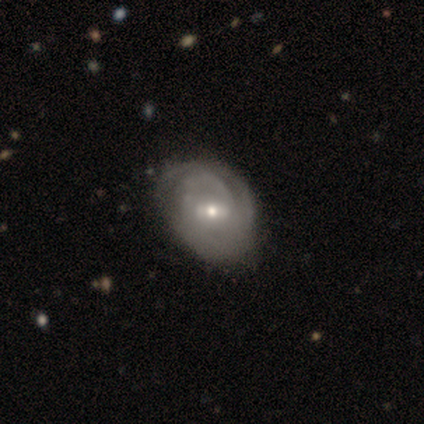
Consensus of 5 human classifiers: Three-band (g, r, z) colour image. It shows a featured or disk galaxy (80%) with a weak bar (75%), tight (100%) spiral arms (75%) and a moderate central bulge (50%). Merging: minor disturbance (80%).